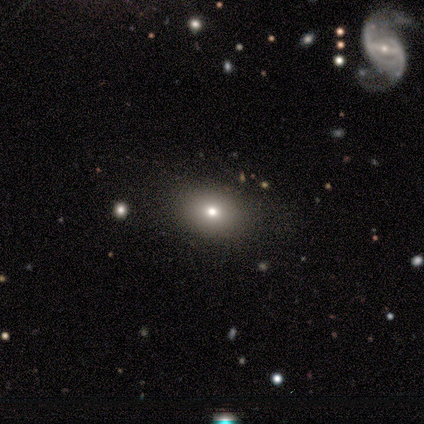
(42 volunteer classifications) This appears to be a smooth galaxy with no disk features (67%) that is in between round and cigar-shaped (79%). Merging: none (87%).